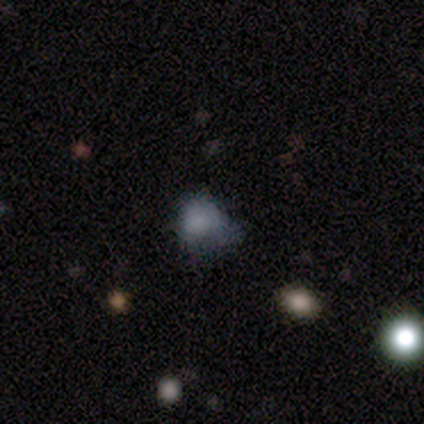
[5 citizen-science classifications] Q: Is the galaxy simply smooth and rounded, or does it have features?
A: featured or disk — 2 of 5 (40%, tied with star or artifact).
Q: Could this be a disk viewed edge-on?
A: no — 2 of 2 (100%).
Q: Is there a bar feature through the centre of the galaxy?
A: no — 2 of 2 (100%).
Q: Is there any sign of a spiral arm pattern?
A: no — 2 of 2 (100%).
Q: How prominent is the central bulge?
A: none — 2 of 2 (100%).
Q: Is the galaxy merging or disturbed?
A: minor disturbance — 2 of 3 (67%).